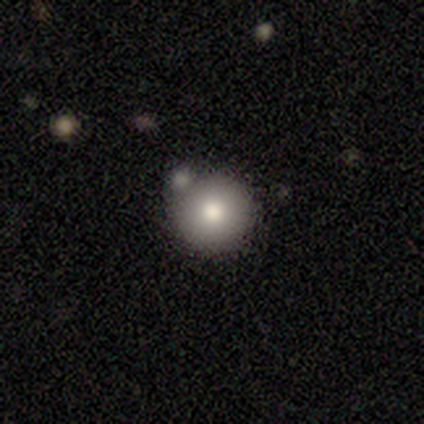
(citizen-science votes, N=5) Overall: smooth (60%; star or artifact 40%). How rounded: round (100%). Merging: none (100%).